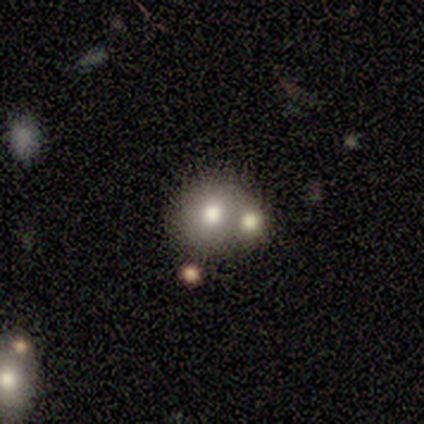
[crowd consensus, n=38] Smooth or featured?
  - smooth: 66% *
  - featured or disk: 24%
  - star or artifact: 11%
How rounded?
  - round: 88% *
  - in between: 12%
  - cigar-shaped: 0%
Merging?
  - merger: 56% *
  - none: 29%
  - minor disturbance: 12%
  - major disturbance: 3%